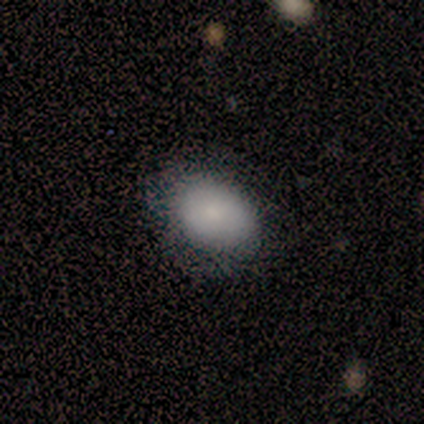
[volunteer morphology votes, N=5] Smooth or featured: smooth — 80% (star or artifact — 20%)
How rounded: in between — 75% (round — 25%)
Merging: none — 100%